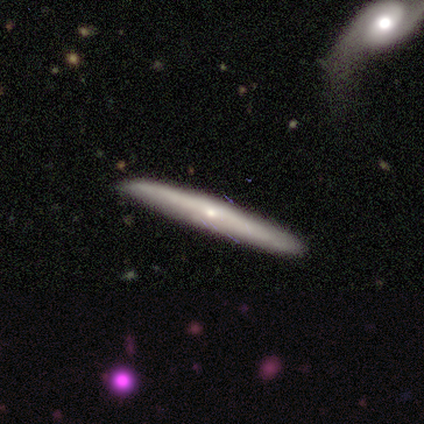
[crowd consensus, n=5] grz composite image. It shows a featured or disk galaxy (80%) viewed edge-on (100%) with no central bulge (50%, tied with rounded). Merging: none (80%).